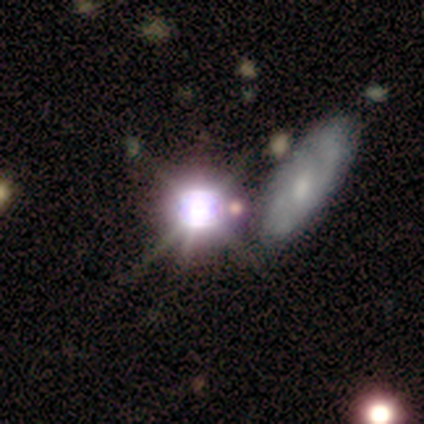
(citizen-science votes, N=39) This appears to be a star or artifact, not a galaxy (79%).